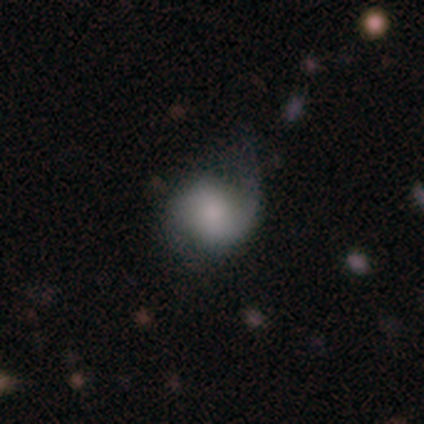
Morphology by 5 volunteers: Q: Smooth or featured?
A: smooth (60%); runner-up: featured or disk (20%)
Q: How rounded?
A: round (67%); runner-up: in between (33%)
Q: Merging?
A: none (50%); runner-up: minor disturbance (25%)